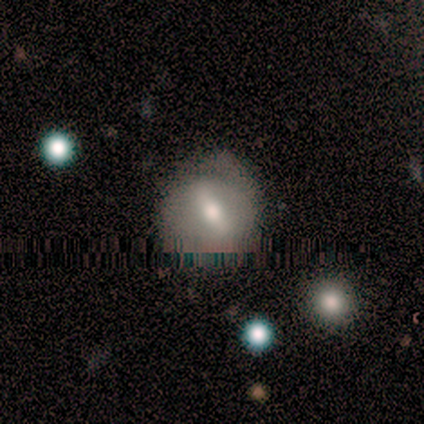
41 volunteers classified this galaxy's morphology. Volunteers were most divided on "merging": none: 50%, minor disturbance: 44%, major disturbance: 6%, merger: 0%. Remaining: how rounded — round (79%); smooth or featured — smooth (46%).